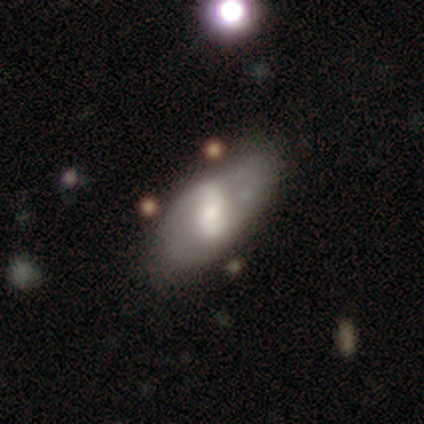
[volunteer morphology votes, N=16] featured or disk 69%, smooth 25%, star or artifact 6%. Down the decision tree: edge-on disk — no (100%); bar — strong (45%); spiral arms — yes (64%); spiral arm count — 2 (100%); spiral winding — loose (86%); bulge size — moderate (64%); merging — none (53%).